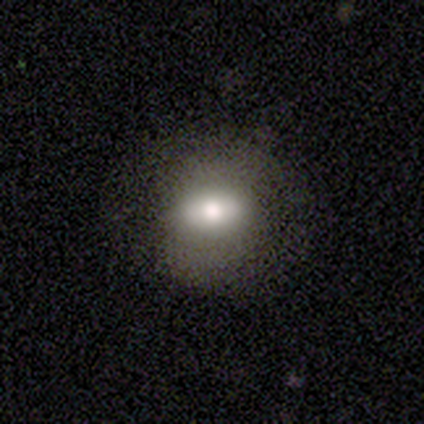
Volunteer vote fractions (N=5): smooth_or_featured: smooth (p=0.60) [alt: featured or disk p=0.40]
how_rounded: in between (p=0.67) [alt: round p=0.33]
merging: none (p=0.80) [alt: major disturbance p=0.20]